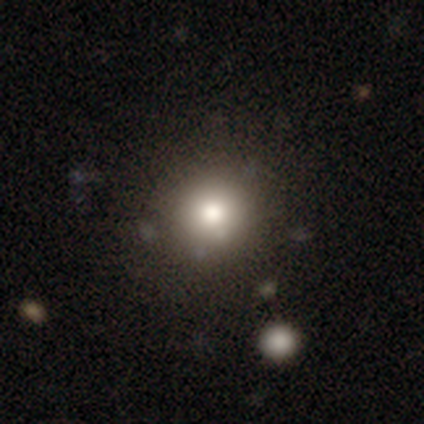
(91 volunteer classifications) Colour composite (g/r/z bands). It shows a smooth galaxy with no disk features (71%) that is round (97%). Merging: none (83%).